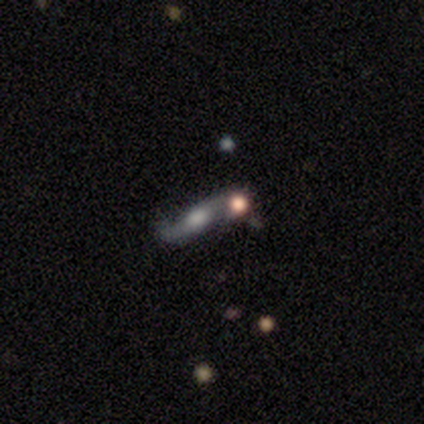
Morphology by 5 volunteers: featured or disk 60%, smooth 40%, star or artifact 0%. Down the decision tree: edge-on disk — yes (67%); edge-on bulge — rounded (100%); merging — merger (60%).